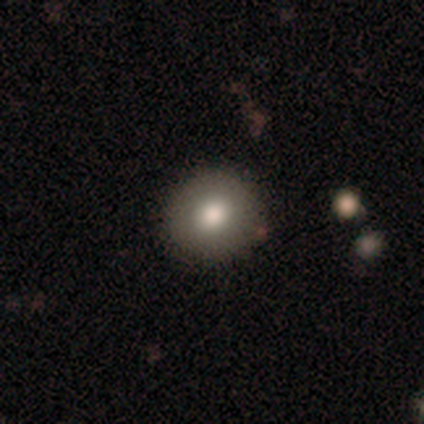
smooth_or_featured: smooth (p=0.78) [alt: featured or disk p=0.17]
how_rounded: round (p=0.81) [alt: in between p=0.16]
merging: none (p=0.79) [alt: minor disturbance p=0.13]